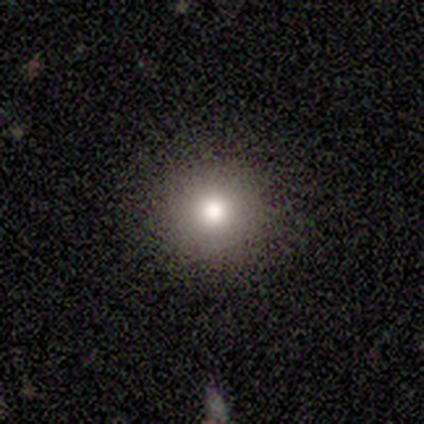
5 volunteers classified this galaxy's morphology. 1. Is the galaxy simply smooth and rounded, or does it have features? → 60% smooth, 20% featured or disk, 20% star or artifact.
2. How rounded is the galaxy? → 100% round, 0% in between, 0% cigar-shaped.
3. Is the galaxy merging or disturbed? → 100% none, 0% minor disturbance, 0% major disturbance, 0% merger.